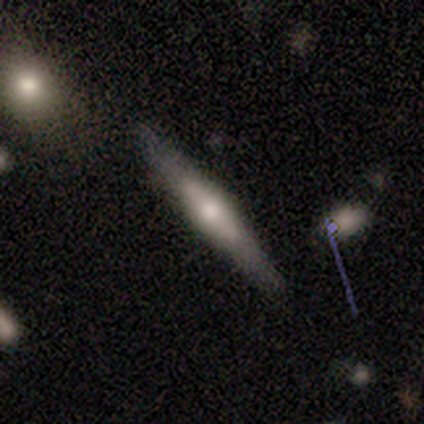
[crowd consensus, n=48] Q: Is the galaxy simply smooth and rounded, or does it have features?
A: featured or disk — 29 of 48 (60%).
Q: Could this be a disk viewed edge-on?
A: yes — 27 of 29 (93%).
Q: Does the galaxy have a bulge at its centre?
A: rounded — 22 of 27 (81%).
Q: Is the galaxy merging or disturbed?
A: none — 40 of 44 (91%).